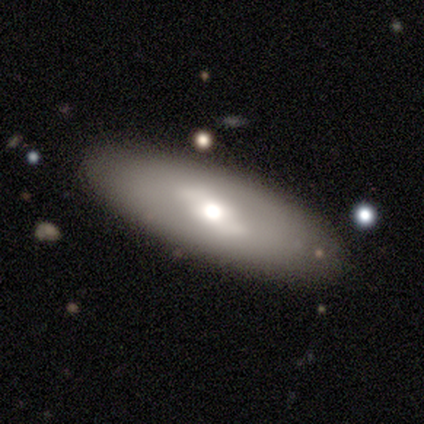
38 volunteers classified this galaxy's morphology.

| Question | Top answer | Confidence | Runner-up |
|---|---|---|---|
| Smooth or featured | featured or disk | 53% | smooth (39%) |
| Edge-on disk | no | 75% | yes (25%) |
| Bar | no | 47% | weak (33%) |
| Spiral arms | no | 67% | yes (33%) |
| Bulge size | moderate | 60% | large (33%) |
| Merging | none | 91% | minor disturbance (6%) |